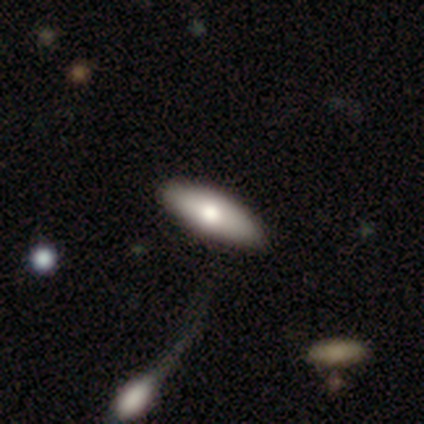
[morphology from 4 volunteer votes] This is possibly a smooth galaxy (50%, tied with featured or disk). How rounded: possibly in between (50%, tied with cigar-shaped). Merging: likely none (75%).